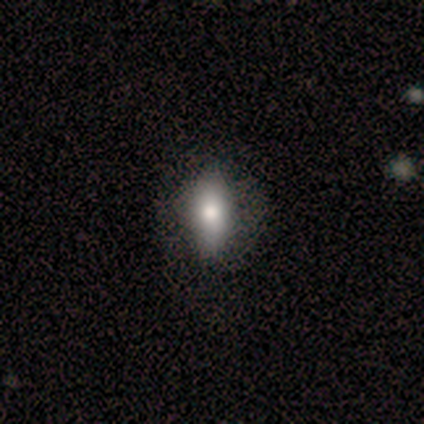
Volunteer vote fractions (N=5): A smooth galaxy with no disk features (60%) that is in between round and cigar-shaped (67%).

Vote fractions:
- Smooth or featured? smooth: 60% / featured or disk: 40% / star or artifact: 0%
- How rounded? in between: 67% / cigar-shaped: 33% / round: 0%
- Merging? none: 60% / minor disturbance: 20% / major disturbance: 20% / merger: 0%